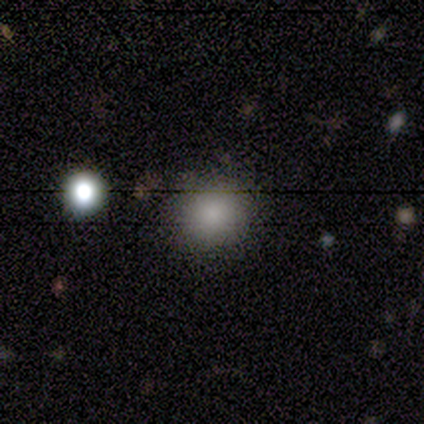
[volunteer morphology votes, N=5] Smooth or featured? 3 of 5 (60%) said smooth. How rounded? 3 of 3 (100%) said round. Merging? 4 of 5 (80%) said none.